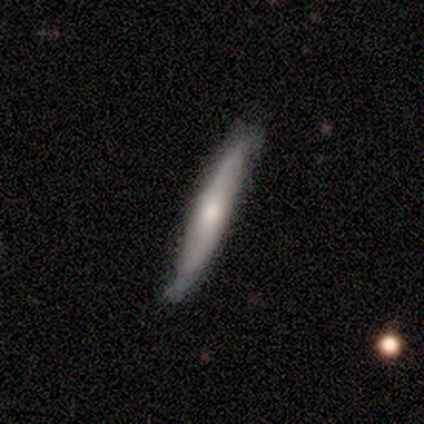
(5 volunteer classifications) Smooth or featured?
  - featured or disk: 60% *
  - smooth: 40%
  - star or artifact: 0%
Edge-on disk?
  - no: 67% *
  - yes: 33%
Bar?
  - no: 100% *
  - strong: 0%
  - weak: 0%
Spiral arms?
  - yes: 50% * (tied)
  - no: 50% * (tied)
Spiral winding?
  - loose: 100% *
  - tight: 0%
  - medium: 0%
Spiral arm count?
  - 2: 100% *
  - 1: 0%
  - 3: 0%
  - 4: 0%
  - more than 4: 0%
  - can't tell: 0%
Bulge size?
  - moderate: 50% * (tied)
  - small: 50% * (tied)
  - dominant: 0%
  - large: 0%
  - none: 0%
Merging?
  - none: 60% *
  - minor disturbance: 40%
  - major disturbance: 0%
  - merger: 0%